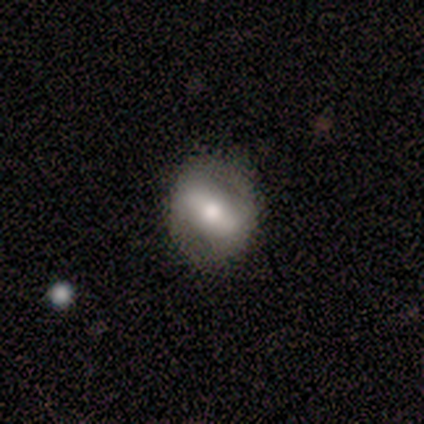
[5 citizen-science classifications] This is likely a smooth galaxy (60%). How rounded: likely in between (67%). Merging: likely none (60%).